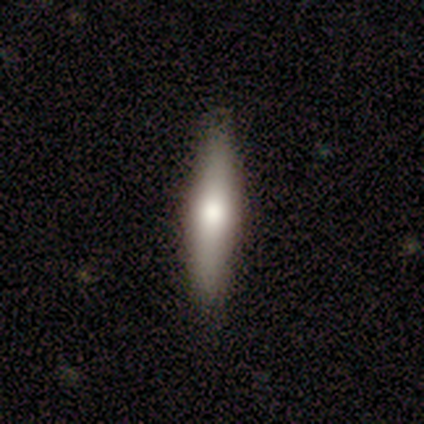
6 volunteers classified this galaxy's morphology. Smooth or featured? smooth (50%)
How rounded? cigar-shaped (100%)
Merging? none (80%)